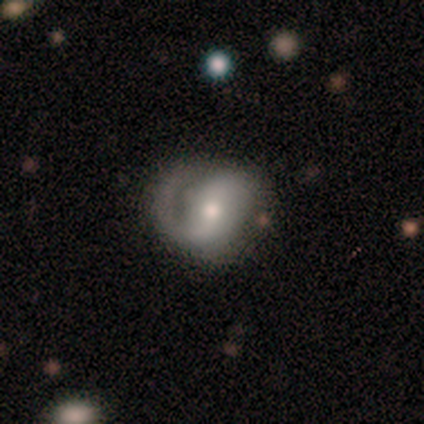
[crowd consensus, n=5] Morphology: type=featured or disk (60%); edge-on=no (100%); bar=strong (33%, tied with weak and no); spiral arms=yes (100%); winding=tight (67%); arm count=1 (100%); bulge=small (67%); merging=none (75%).